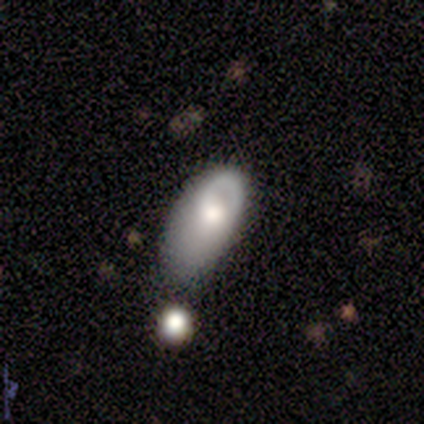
Morphology: type=featured or disk (75%); edge-on=no (100%); bar=no (100%); spiral arms=yes (67%); winding=loose (100%); arm count=1 (50%, tied with can't tell); bulge=moderate (67%); merging=none (50%).